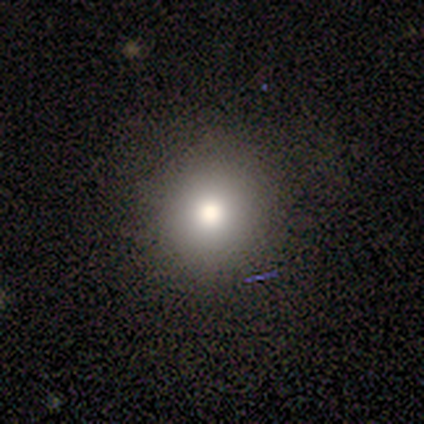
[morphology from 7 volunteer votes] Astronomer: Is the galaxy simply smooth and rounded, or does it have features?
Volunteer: smooth — 71%.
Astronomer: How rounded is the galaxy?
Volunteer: round — 100%.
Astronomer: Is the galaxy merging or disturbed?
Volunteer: none — 60%.